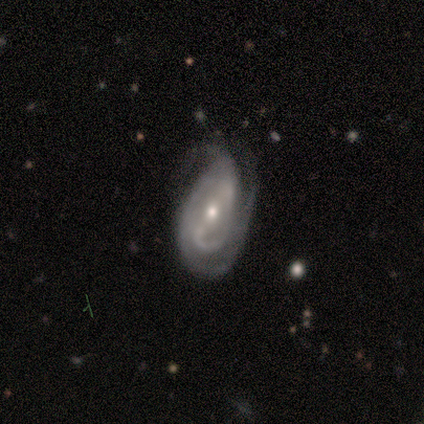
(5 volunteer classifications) smooth_or_featured: featured or disk (p=0.60) [alt: star or artifact p=0.40]
disk_edge_on: no (p=0.67) [alt: yes p=0.33]
bar: strong (p=1.00)
has_spiral_arms: yes (p=1.00)
spiral_winding: tight (p=1.00)
spiral_arm_count: 3 (p=0.50) [tied with: can't tell p=0.50]
bulge_size: moderate (p=1.00)
merging: none (p=0.67) [alt: minor disturbance p=0.33]